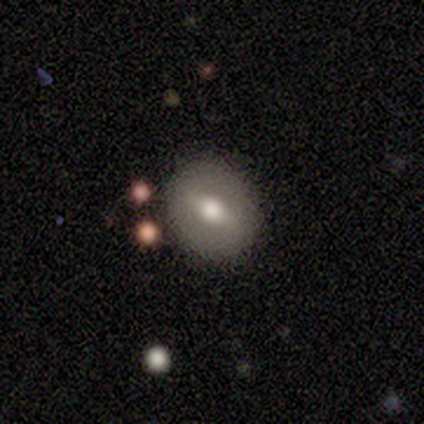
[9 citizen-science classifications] Smooth or featured: featured or disk — 56% (smooth — 33%)
Edge-on disk: no — 100%
Bar: weak — 60% (strong — 20%)
Spiral arms: no — 80% (yes — 20%)
Bulge size: moderate — 60% (large — 20%)
Merging: none — 75% (minor disturbance — 25%)